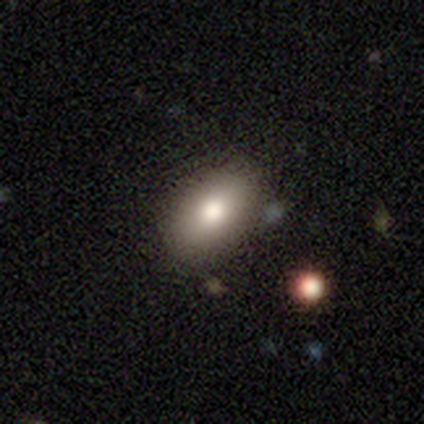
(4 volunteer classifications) Smooth or featured?
  - smooth: 75% *
  - star or artifact: 25%
  - featured or disk: 0%
How rounded?
  - in between: 67% *
  - cigar-shaped: 33%
  - round: 0%
Merging?
  - none: 67% *
  - minor disturbance: 33%
  - major disturbance: 0%
  - merger: 0%